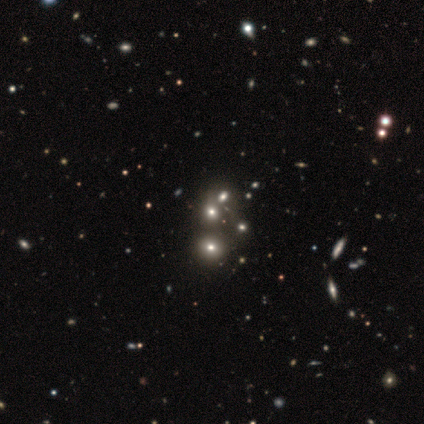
smooth-or-featured: star or artifact: 75% | smooth: 25% | featured or disk: 0%